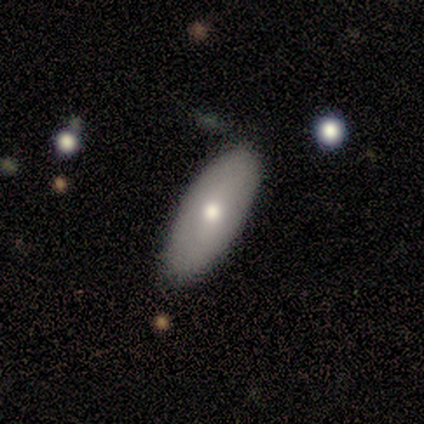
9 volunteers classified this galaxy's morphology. Smooth or featured? smooth (56%)
How rounded? in between (80%)
Merging? none (89%)